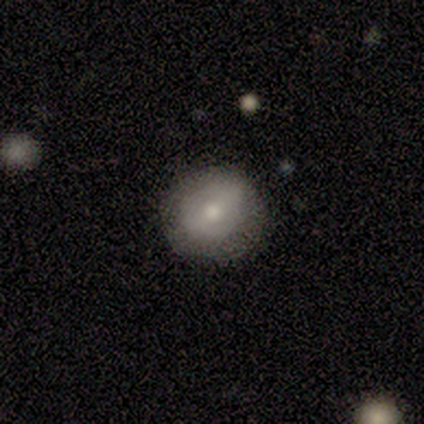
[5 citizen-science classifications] Volunteers were most divided on "smooth or featured": featured or disk: 60%, smooth: 40%, star or artifact: 0%. More confident: edge-on disk — no (100%); spiral arms — no (100%); merging — none (100%); bar — weak (67%); bulge size — moderate (67%).